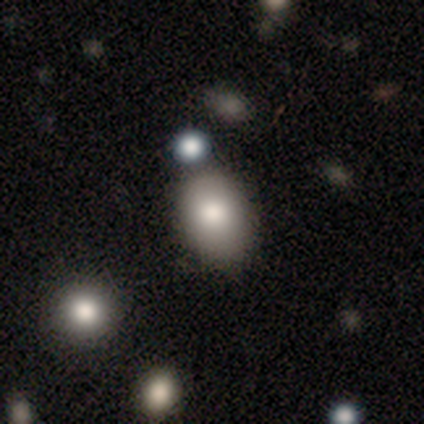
Morphology: type=smooth (67%); roundness=in between (75%); merging=none (67%).